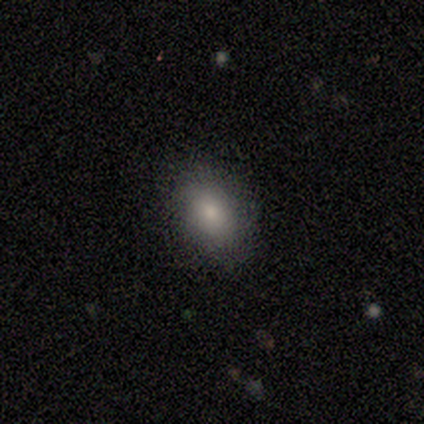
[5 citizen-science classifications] smooth-or-featured: smooth: 100% | featured or disk: 0% | star or artifact: 0%
  how-rounded: in between: 100% | round: 0% | cigar-shaped: 0%
  merging: none: 100% | minor disturbance: 0% | major disturbance: 0% | merger: 0%